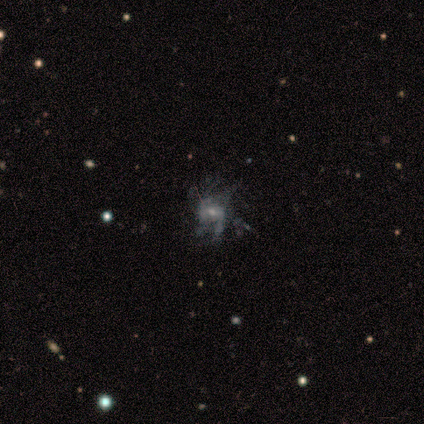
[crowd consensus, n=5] Morphology: type=featured or disk (60%); edge-on=no (100%); bar=no (100%); spiral arms=yes (67%); winding=medium (50%, tied with loose); arm count=can't tell (100%); bulge=moderate (67%); merging=none (67%).